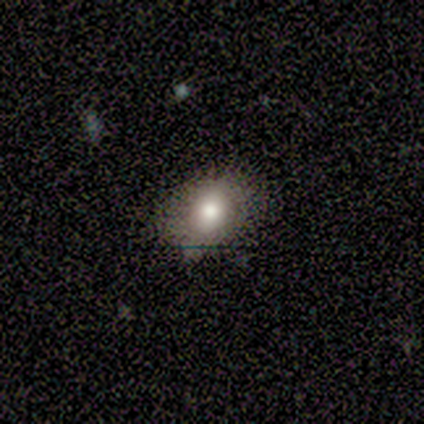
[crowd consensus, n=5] Q: Smooth or featured?
A: smooth (100%)
Q: How rounded?
A: in between (80%); runner-up: round (20%)
Q: Merging?
A: none (80%); runner-up: minor disturbance (20%)